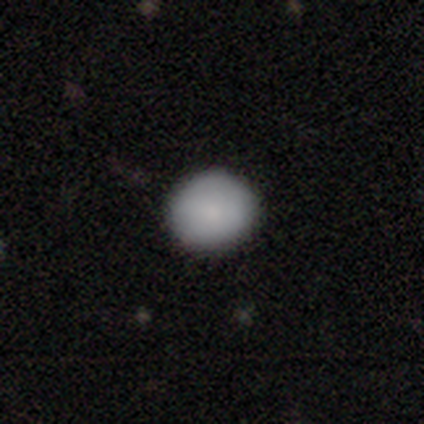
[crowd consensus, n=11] Smooth or featured? smooth (91%)
How rounded? round (60%)
Merging? none (91%)